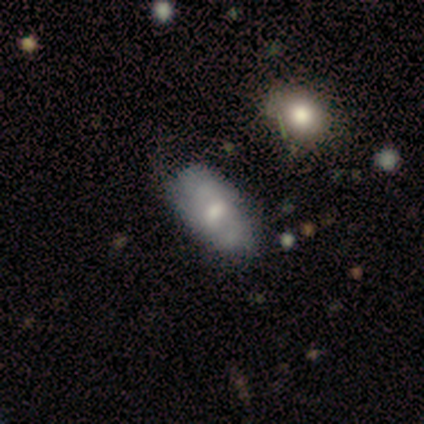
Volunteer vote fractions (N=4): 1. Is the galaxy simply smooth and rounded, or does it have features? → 100% smooth, 0% featured or disk, 0% star or artifact.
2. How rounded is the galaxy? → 100% in between, 0% round, 0% cigar-shaped.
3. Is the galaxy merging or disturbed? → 100% none, 0% minor disturbance, 0% major disturbance, 0% merger.